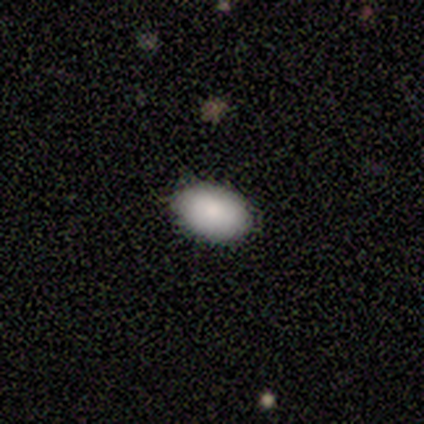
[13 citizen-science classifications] Volunteers were most divided on "smooth or featured": smooth: 92%, featured or disk: 8%, star or artifact: 0%. More confident: how rounded — in between (100%); merging — none (92%).